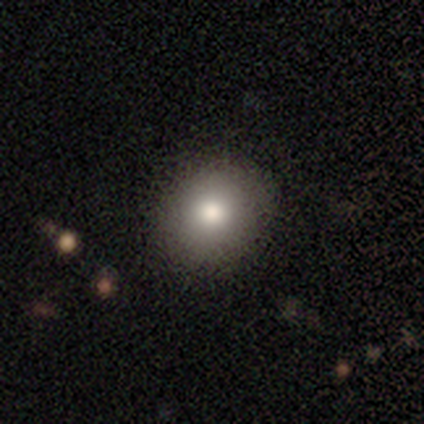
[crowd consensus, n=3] Overall: featured or disk (67%; star or artifact 33%). Edge-on disk: no (100%). Bar: no (100%). Spiral arms: no (100%). Bulge size: large (100%). Merging: none (50%, tied with minor disturbance).